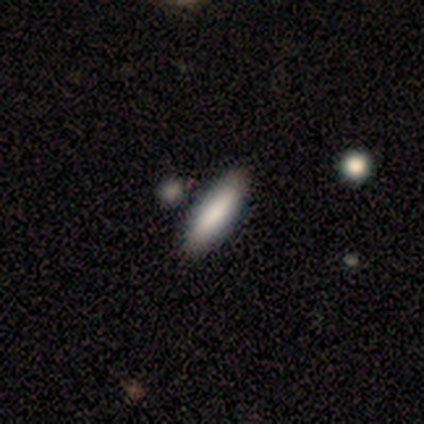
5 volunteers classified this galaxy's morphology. smooth_or_featured: smooth (p=1.00)
how_rounded: cigar-shaped (p=0.80) [alt: in between p=0.20]
merging: none (p=1.00)